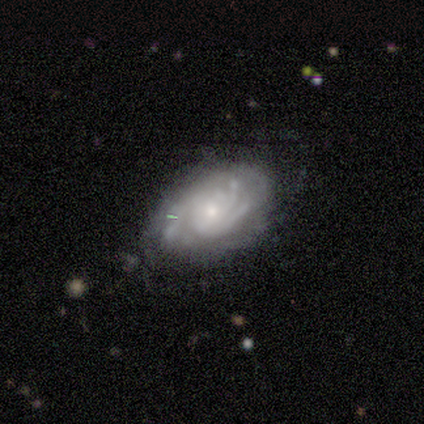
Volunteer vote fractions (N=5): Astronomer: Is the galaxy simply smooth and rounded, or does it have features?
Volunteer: featured or disk — 100%.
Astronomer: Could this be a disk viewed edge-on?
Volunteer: no — 100%.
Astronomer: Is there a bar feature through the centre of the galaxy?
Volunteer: no — 80%.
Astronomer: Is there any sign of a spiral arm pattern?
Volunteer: yes — 100%.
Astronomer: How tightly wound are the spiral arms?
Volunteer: tight — 80%.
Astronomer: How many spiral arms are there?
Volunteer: can't tell — 60% (runner-up: 3, 40%).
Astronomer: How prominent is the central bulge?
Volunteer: small — 80%.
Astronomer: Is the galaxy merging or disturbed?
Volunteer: none — 60% (runner-up: minor disturbance, 40%).